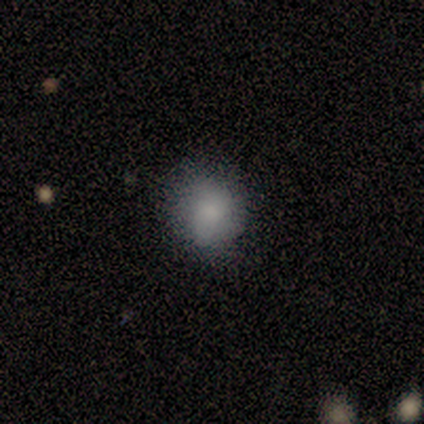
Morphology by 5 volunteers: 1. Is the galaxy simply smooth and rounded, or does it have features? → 40% smooth (tied), 40% featured or disk (tied), 20% star or artifact.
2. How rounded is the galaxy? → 50% round (tied), 50% in between (tied), 0% cigar-shaped.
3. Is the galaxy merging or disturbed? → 75% minor disturbance, 25% none, 0% major disturbance, 0% merger.